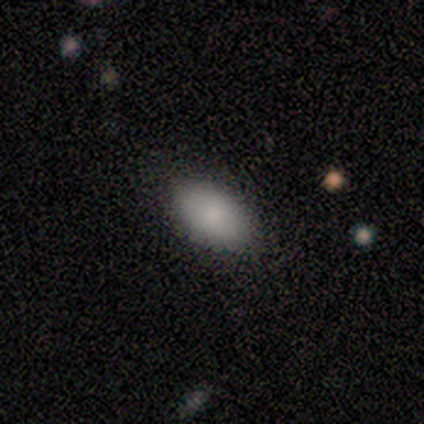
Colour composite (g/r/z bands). It shows a smooth galaxy with no disk features (100%) that is in between round and cigar-shaped (100%). Merging: none (100%).